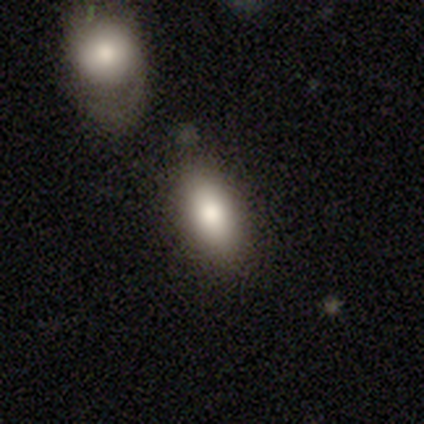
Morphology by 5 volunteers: smooth 80%, featured or disk 20%, star or artifact 0%. Down the decision tree: how rounded — in between (100%); merging — none (40%, tied with minor disturbance).